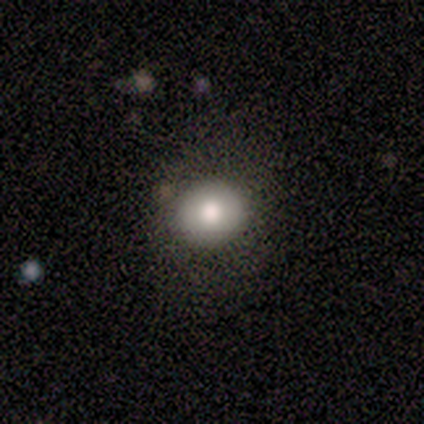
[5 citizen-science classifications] This is clearly a smooth galaxy (80%). How rounded: clearly round (100%). Merging: clearly none (100%).